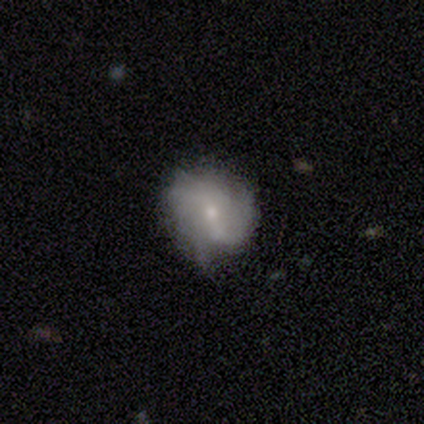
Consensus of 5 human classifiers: smooth-or-featured: smooth: 80% | featured or disk: 20% | star or artifact: 0%
  how-rounded: round: 50% (tied) | in between: 50% (tied) | cigar-shaped: 0%
  merging: none: 60% | minor disturbance: 20% | major disturbance: 20% | merger: 0%